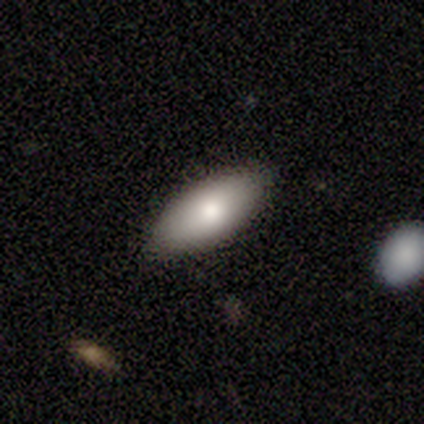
Smooth or featured? 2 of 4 (50%, tied with featured or disk) said smooth. How rounded? 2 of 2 (100%) said in between. Merging? 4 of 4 (100%) said none.